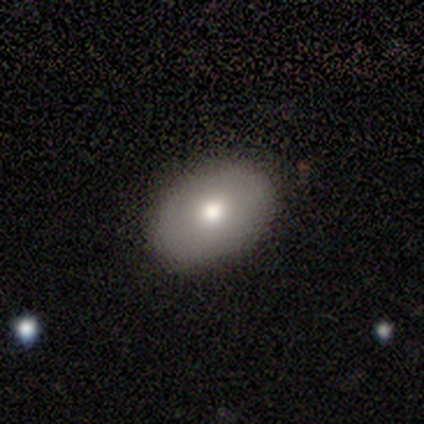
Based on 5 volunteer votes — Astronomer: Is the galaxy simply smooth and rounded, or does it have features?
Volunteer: smooth — 100%.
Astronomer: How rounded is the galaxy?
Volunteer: in between — 100%.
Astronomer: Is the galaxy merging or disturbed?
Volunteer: none — 80%.